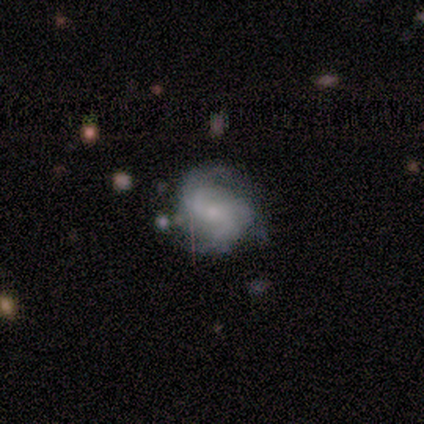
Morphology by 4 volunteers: type=featured or disk (75%); edge-on=no (100%); bar=strong (33%, tied with weak and no); spiral arms=yes (100%); winding=medium (67%); arm count=3 (100%); bulge=moderate (33%, tied with small and none); merging=minor disturbance (67%).